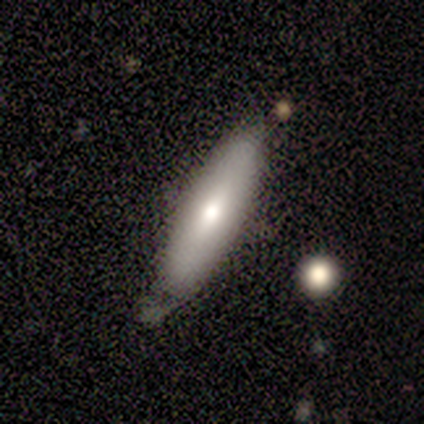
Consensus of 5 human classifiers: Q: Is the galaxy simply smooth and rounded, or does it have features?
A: smooth — 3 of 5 (60%).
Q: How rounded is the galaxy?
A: in between — 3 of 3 (100%).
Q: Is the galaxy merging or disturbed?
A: none — 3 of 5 (60%).